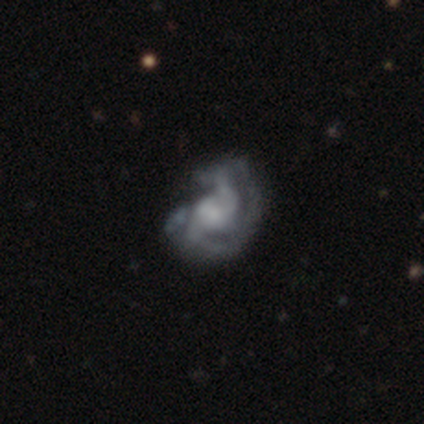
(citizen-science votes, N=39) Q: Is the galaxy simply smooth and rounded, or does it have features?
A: featured or disk — 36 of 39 (92%).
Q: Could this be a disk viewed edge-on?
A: no — 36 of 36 (100%).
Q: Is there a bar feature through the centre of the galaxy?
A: no — 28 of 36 (78%).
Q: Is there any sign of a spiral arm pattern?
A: yes — 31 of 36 (86%).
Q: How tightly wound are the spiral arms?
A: medium — 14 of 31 (45%).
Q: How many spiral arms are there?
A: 2 — 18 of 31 (58%).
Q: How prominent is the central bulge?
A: small — 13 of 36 (36%).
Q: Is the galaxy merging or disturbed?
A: none — 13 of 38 (34%).